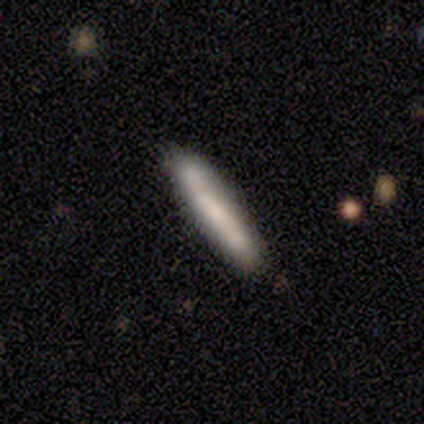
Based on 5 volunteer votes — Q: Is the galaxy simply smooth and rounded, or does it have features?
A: smooth — 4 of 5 (80%).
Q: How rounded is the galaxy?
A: cigar-shaped — 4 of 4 (100%).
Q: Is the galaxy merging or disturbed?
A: none — 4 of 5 (80%).